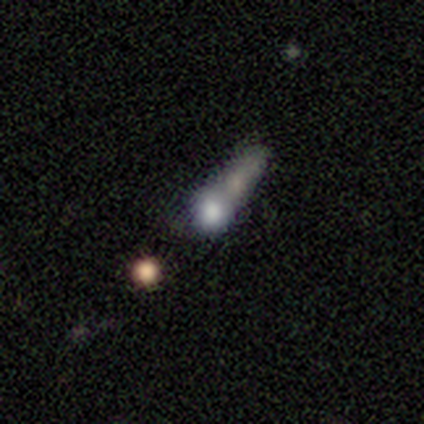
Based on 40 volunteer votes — A smooth galaxy with no disk features (45%) that is round (44%). Merging: merger (38%).